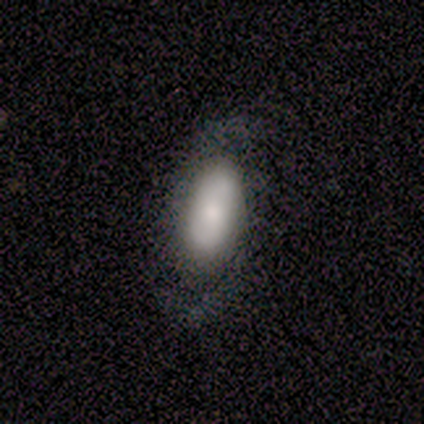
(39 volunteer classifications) Morphology: type=featured or disk (51%); edge-on=no (100%); bar=no (60%); spiral arms=yes (85%); winding=tight (35%, tied with medium); arm count=2 (82%); bulge=moderate (45%); merging=none (77%).